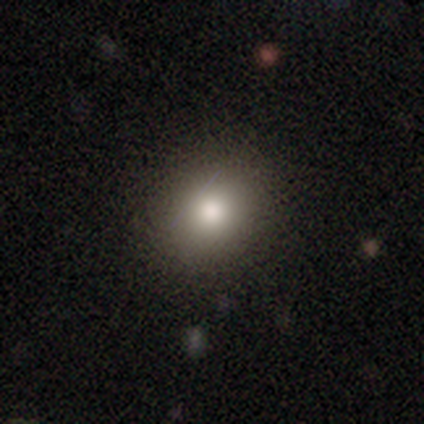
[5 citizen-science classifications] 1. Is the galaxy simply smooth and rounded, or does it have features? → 100% smooth, 0% featured or disk, 0% star or artifact.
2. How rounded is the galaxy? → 80% round, 20% in between, 0% cigar-shaped.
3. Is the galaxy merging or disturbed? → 100% none, 0% minor disturbance, 0% major disturbance, 0% merger.